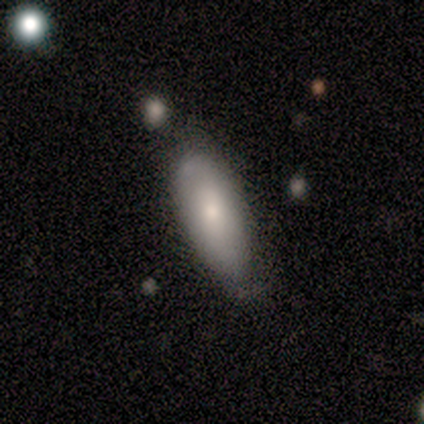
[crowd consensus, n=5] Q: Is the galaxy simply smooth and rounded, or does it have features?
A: smooth — 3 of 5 (60%).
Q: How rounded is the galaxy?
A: in between — 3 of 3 (100%).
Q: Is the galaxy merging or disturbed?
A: none — 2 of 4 (50%, tied with minor disturbance).